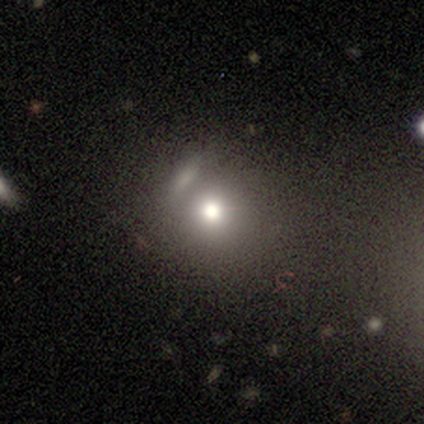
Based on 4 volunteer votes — Overall: smooth (50%; featured or disk 25%). How rounded: round (100%). Merging: none (100%).